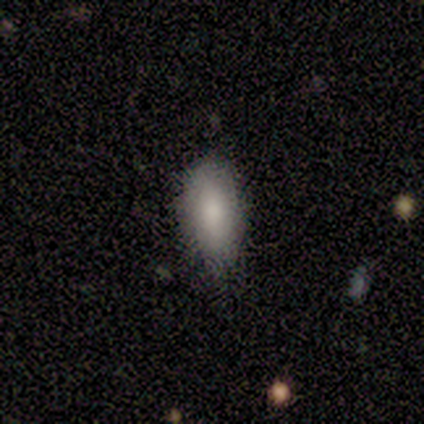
smooth-or-featured: smooth: 93% | featured or disk: 7% | star or artifact: 0%
  how-rounded: in between: 86% | cigar-shaped: 14% | round: 0%
  merging: none: 73% | minor disturbance: 20% | major disturbance: 7% | merger: 0%